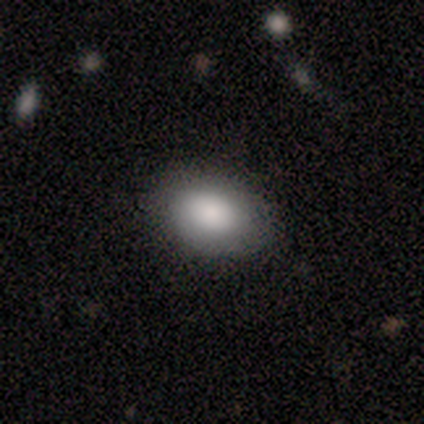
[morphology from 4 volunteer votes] A smooth galaxy with no disk features (100%) that is in between round and cigar-shaped (100%). Merging: none (50%, tied with minor disturbance).